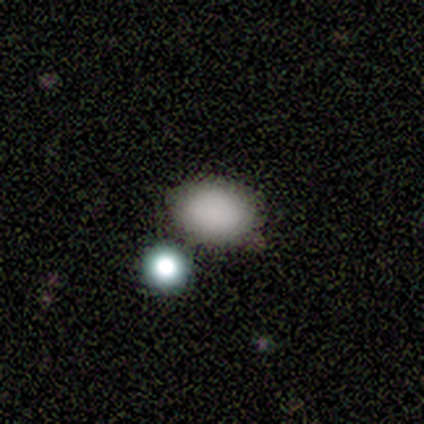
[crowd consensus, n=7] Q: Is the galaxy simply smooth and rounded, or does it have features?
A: smooth — 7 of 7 (100%).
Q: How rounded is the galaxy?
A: in between — 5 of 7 (71%).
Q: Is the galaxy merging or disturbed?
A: none — 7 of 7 (100%).